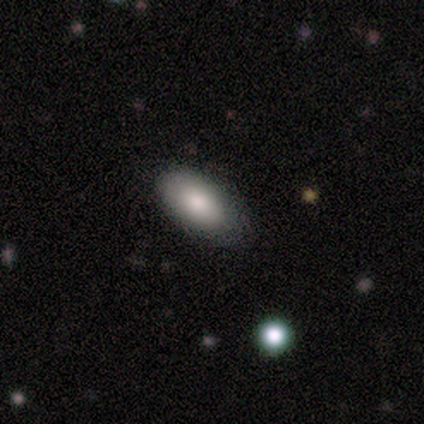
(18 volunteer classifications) Q: Smooth or featured?
A: smooth (94%); runner-up: star or artifact (6%)
Q: How rounded?
A: in between (100%)
Q: Merging?
A: none (71%); runner-up: minor disturbance (29%)